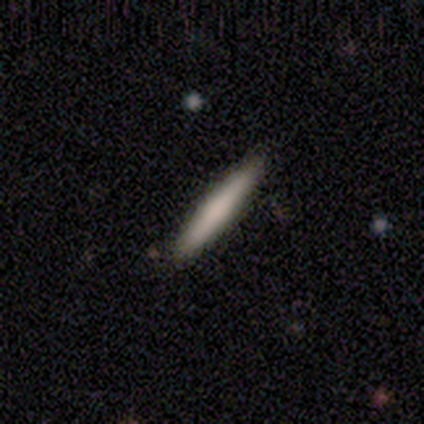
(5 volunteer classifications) Volunteers were most divided on "how rounded": cigar-shaped: 80%, in between: 20%, round: 0%. More confident: smooth or featured — smooth (100%); merging — none (100%).